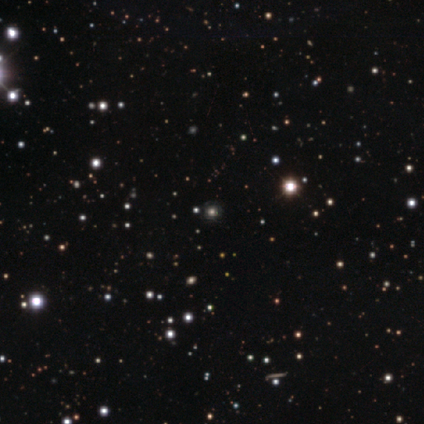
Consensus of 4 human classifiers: Smooth or featured: star or artifact — 100%